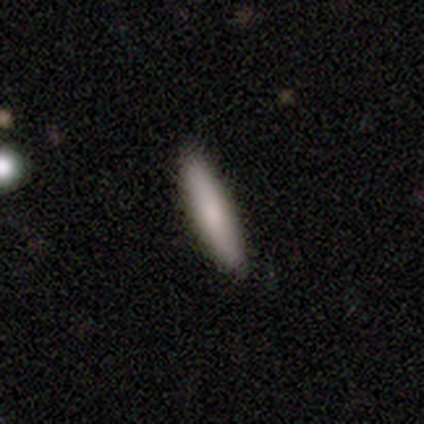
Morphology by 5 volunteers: Volunteers were most divided on "how rounded": cigar-shaped: 75%, in between: 25%, round: 0%. More confident: merging — none (100%); smooth or featured — smooth (80%).